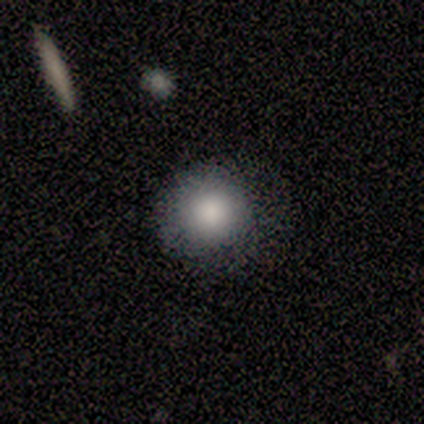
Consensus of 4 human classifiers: A smooth galaxy with no disk features (100%) that is round (75%). Merging: minor disturbance (50%).